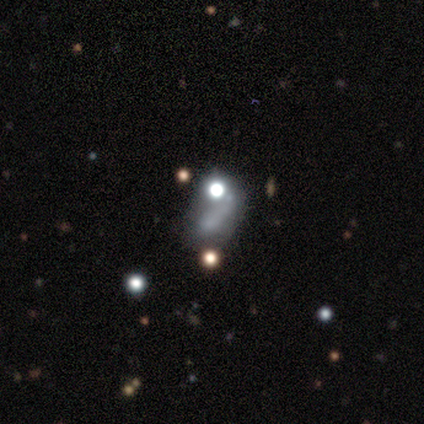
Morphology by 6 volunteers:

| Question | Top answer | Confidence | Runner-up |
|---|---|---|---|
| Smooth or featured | smooth | 67% | featured or disk (17%) |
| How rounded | in between | 75% | cigar-shaped (25%) |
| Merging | minor disturbance | 60% | merger (40%) |